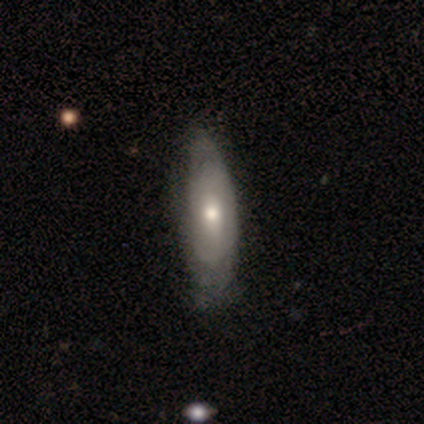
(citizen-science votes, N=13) smooth 62%, featured or disk 31%, star or artifact 8%. Down the decision tree: how rounded — in between (50%, tied with cigar-shaped); merging — none (50%).